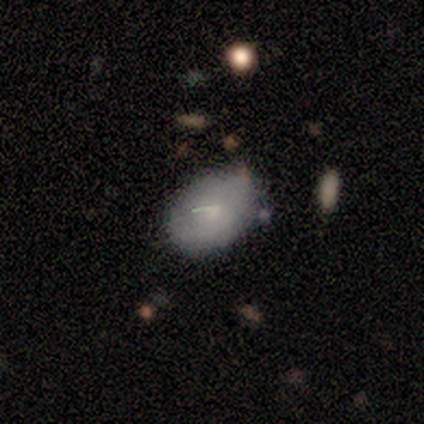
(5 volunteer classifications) Smooth or featured? smooth (80%)
How rounded? in between (100%)
Merging? none (75%)